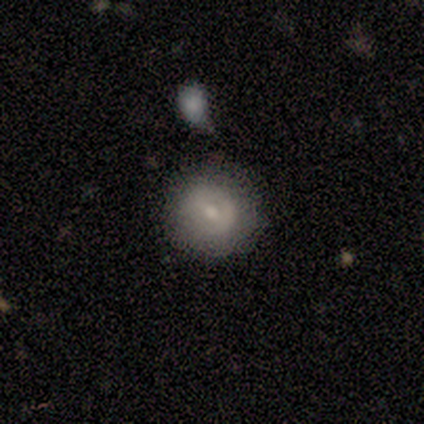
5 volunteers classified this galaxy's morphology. Smooth or featured: smooth — 80% (featured or disk — 20%)
How rounded: round — 100%
Merging: none — 80% (minor disturbance — 20%)